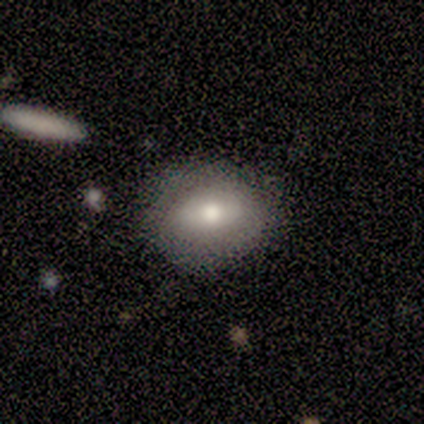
A smooth galaxy with no disk features (88%) that is in between round and cigar-shaped (71%). Merging: none (75%).